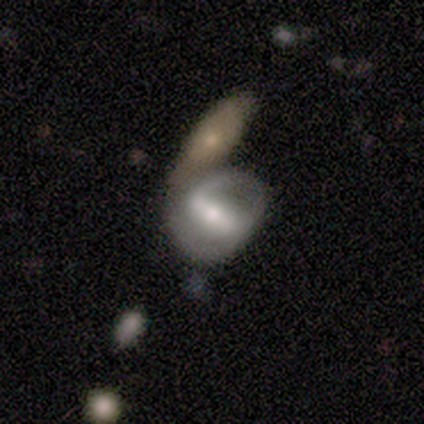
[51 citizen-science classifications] A featured or disk galaxy (63%) with a strong bar (61%), 2 (76%) medium (59%) spiral arms (55%) and a moderate central bulge (58%).

Vote fractions:
- Smooth or featured? featured or disk: 63% / smooth: 27% / star or artifact: 10%
- Edge-on disk? no: 97% / yes: 3%
- Bar? strong: 61% / weak: 35% / no: 3%
- Spiral arms? yes: 55% / no: 45%
- Spiral winding? medium: 59% / loose: 29% / tight: 12%
- Spiral arm count? 2: 76% / can't tell: 18% / 1: 6% / 3: 0% / 4: 0% / more than 4: 0%
- Bulge size? moderate: 58% / small: 26% / large: 16% / dominant: 0% / none: 0%
- Merging? merger: 43% / none: 33% / major disturbance: 15% / minor disturbance: 9%